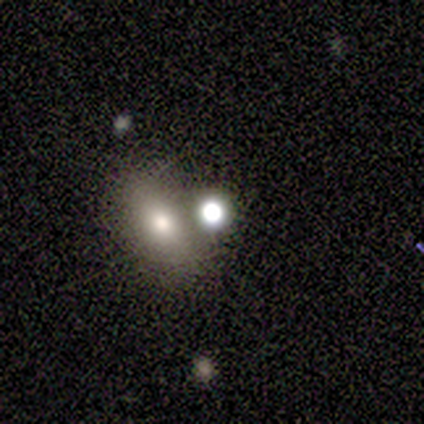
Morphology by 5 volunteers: This appears to be a smooth galaxy with no disk features (60%) that is round (67%). Merging: merger (50%).